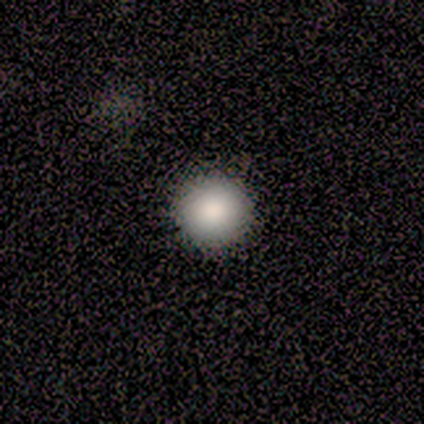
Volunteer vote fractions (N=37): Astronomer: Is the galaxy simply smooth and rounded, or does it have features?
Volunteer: smooth — 97%.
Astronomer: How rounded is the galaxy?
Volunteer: round — 100%.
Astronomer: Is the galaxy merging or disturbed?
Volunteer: none — 56%.